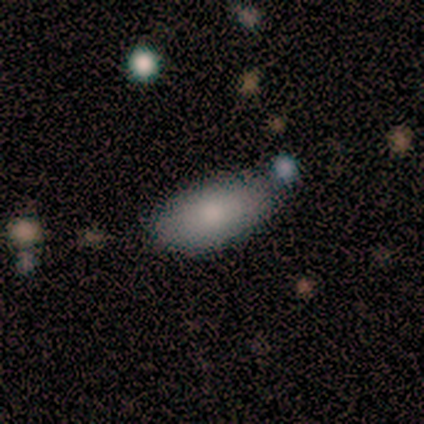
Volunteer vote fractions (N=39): Smooth or featured: smooth — 79% (featured or disk — 13%)
How rounded: in between — 94% (round — 3%)
Merging: none — 81% (merger — 11%)